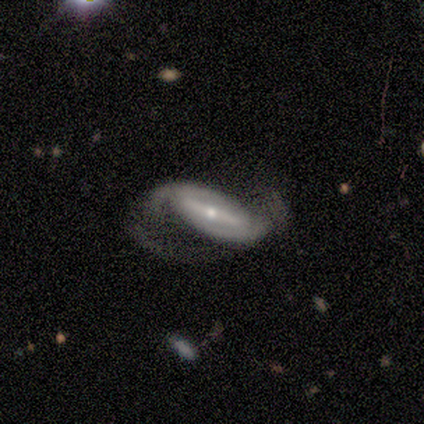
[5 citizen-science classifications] Morphology: type=featured or disk (100%); edge-on=no (80%); bar=strong (50%); spiral arms=yes (100%); winding=medium (50%, tied with loose); arm count=2 (100%); bulge=small (100%); merging=none (40%, tied with minor disturbance).